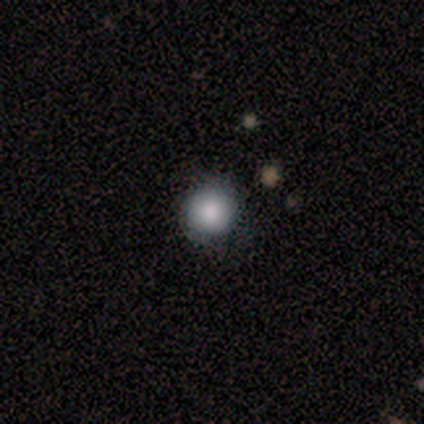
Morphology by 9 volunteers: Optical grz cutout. It shows a smooth galaxy with no disk features (89%) that is round (88%). Merging: none (75%).